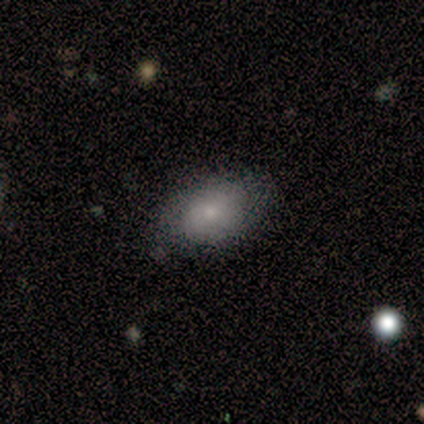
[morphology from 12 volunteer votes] Volunteers were most divided on "merging": none: 83%, minor disturbance: 17%, major disturbance: 0%, merger: 0%. More confident: how rounded — in between (100%); smooth or featured — smooth (92%).